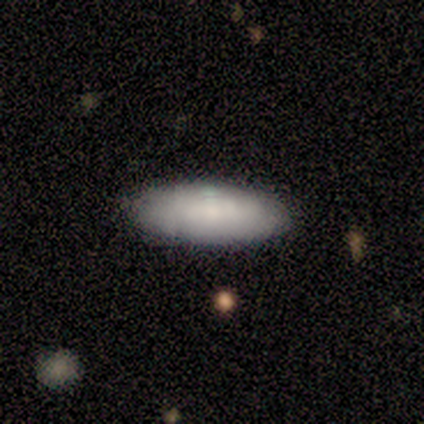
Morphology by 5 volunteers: This is clearly a smooth galaxy (80%). How rounded: clearly in between (100%). Merging: clearly none (100%).